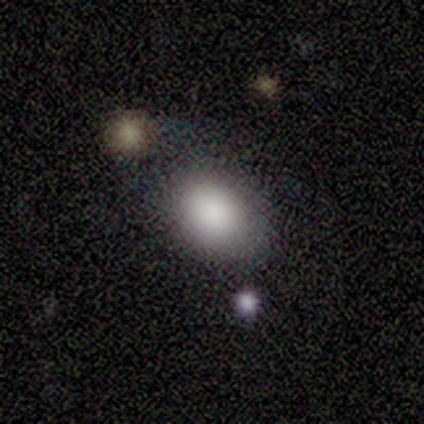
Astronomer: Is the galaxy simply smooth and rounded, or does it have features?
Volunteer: smooth — 80%.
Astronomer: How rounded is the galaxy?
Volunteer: in between — 75%.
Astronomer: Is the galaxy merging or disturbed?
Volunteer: merger — 60% (runner-up: major disturbance, 40%).